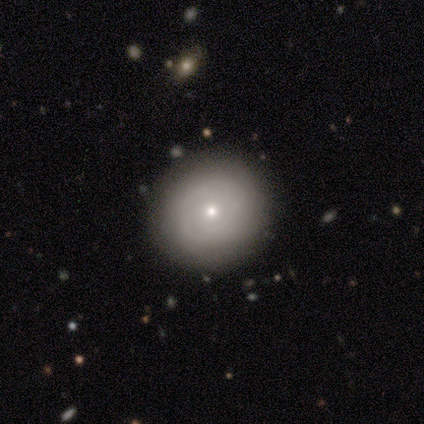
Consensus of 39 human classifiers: Smooth or featured? smooth (64%)
How rounded? round (92%)
Merging? none (86%)